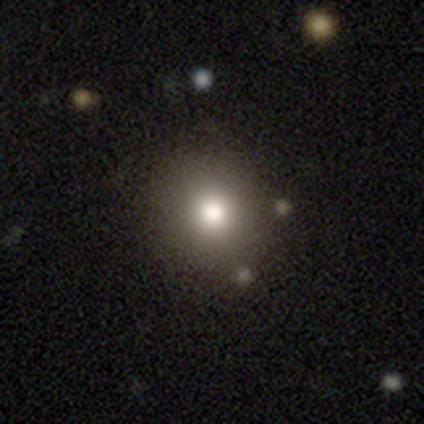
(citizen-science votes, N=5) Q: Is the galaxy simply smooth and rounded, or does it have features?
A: smooth — 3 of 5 (60%).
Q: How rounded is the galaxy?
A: round — 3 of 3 (100%).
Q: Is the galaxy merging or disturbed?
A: none — 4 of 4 (100%).